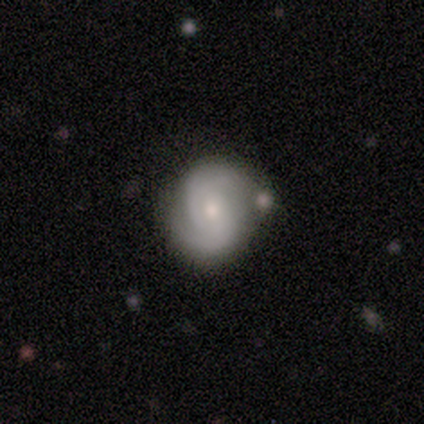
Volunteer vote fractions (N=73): Smooth or featured?
  - featured or disk: 81% *
  - smooth: 14%
  - star or artifact: 5%
Edge-on disk?
  - no: 98% *
  - yes: 2%
Bar?
  - no: 64% *
  - weak: 34%
  - strong: 2%
Spiral arms?
  - yes: 100% *
  - no: 0%
Spiral winding?
  - tight: 48% *
  - medium: 45%
  - loose: 7%
Spiral arm count?
  - 2: 88% *
  - can't tell: 7%
  - 3: 5%
  - 1: 0%
  - 4: 0%
  - more than 4: 0%
Bulge size?
  - moderate: 62% *
  - small: 38%
  - dominant: 0%
  - large: 0%
  - none: 0%
Merging?
  - none: 70% *
  - minor disturbance: 14%
  - merger: 10%
  - major disturbance: 6%